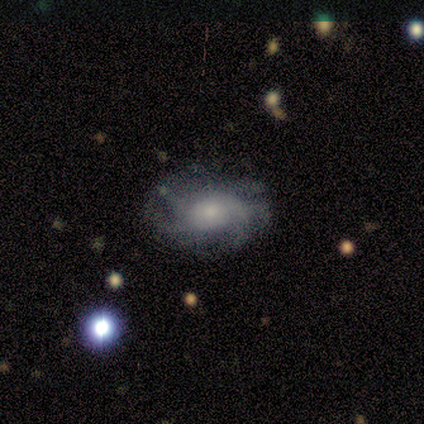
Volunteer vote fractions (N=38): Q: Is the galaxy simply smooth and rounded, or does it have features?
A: featured or disk — 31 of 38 (82%).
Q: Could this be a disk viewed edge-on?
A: no — 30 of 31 (97%).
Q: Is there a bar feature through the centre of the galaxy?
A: no — 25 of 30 (83%).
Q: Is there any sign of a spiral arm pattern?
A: yes — 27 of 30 (90%).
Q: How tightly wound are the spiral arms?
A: medium — 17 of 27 (63%).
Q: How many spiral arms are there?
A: more than 4 — 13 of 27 (48%).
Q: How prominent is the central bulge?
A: small — 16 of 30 (53%).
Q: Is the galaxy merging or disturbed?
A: none — 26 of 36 (72%).